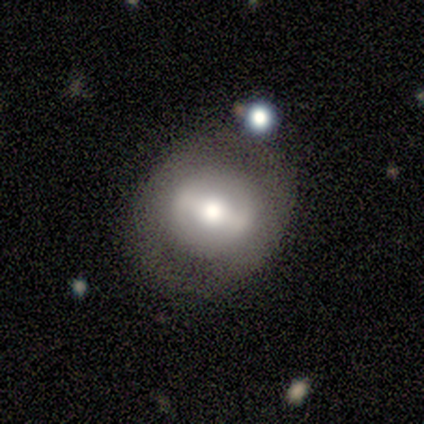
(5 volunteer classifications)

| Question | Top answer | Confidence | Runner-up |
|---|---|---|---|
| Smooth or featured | featured or disk | 60% | smooth (40%) |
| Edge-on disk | no | 100% | — |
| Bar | weak | 100% | — |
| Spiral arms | no | 100% | — |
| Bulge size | moderate | 67% | large (33%) |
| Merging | none | 60% | minor disturbance (20%) |